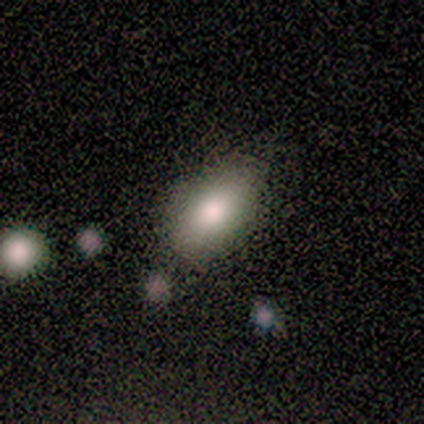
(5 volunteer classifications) Smooth or featured? 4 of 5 (80%) said smooth. How rounded? 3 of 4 (75%) said in between. Merging? 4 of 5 (80%) said none.